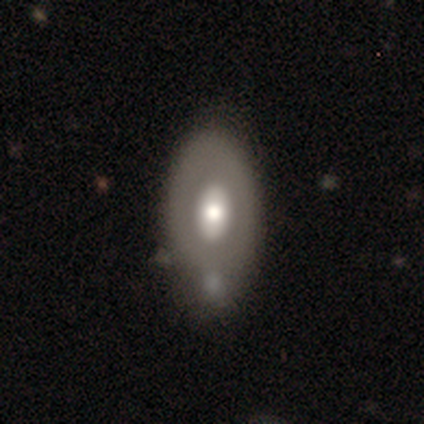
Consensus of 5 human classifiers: Smooth or featured?
  - smooth: 60% *
  - featured or disk: 20%
  - star or artifact: 20%
How rounded?
  - in between: 100% *
  - round: 0%
  - cigar-shaped: 0%
Merging?
  - none: 75% *
  - minor disturbance: 25%
  - major disturbance: 0%
  - merger: 0%